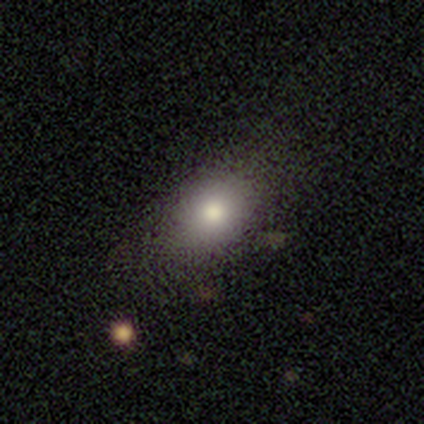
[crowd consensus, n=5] smooth-or-featured: smooth: 80% | star or artifact: 20% | featured or disk: 0%
  how-rounded: in between: 100% | round: 0% | cigar-shaped: 0%
  merging: none: 50% | minor disturbance: 25% | major disturbance: 25% | merger: 0%